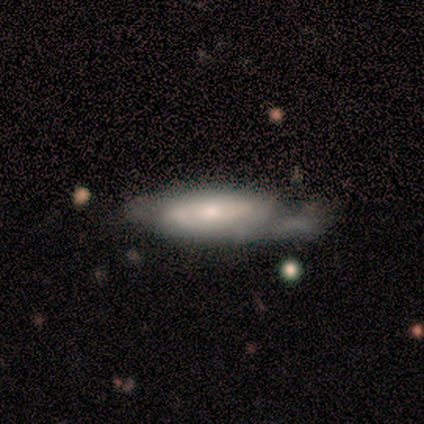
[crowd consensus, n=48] Volunteers were most divided on "merging": minor disturbance: 38%, none: 30%, major disturbance: 30%, merger: 2%. More confident: spiral arms — yes (81%); edge-on disk — no (79%); smooth or featured — featured or disk (69%); bar — no (65%); bulge size — moderate (62%); spiral winding — tight (57%); spiral arm count — 2 (52%).